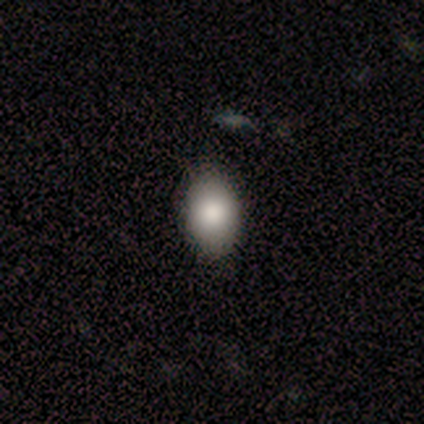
Overall: smooth (77%). How rounded: in between (87%). Merging: none (86%).